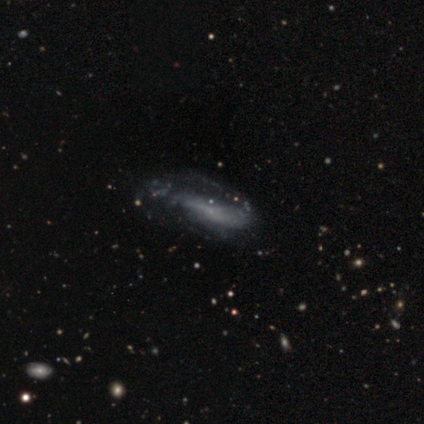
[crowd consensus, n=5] smooth-or-featured: smooth: 60% | featured or disk: 40% | star or artifact: 0%
  how-rounded: in between: 67% | cigar-shaped: 33% | round: 0%
  merging: none: 60% | minor disturbance: 20% | major disturbance: 20% | merger: 0%